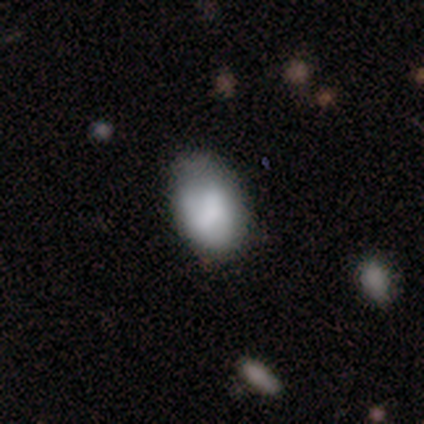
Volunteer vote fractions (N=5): smooth_or_featured: smooth (p=0.60) [alt: featured or disk p=0.40]
how_rounded: in between (p=1.00)
merging: none (p=0.60) [alt: minor disturbance p=0.20]